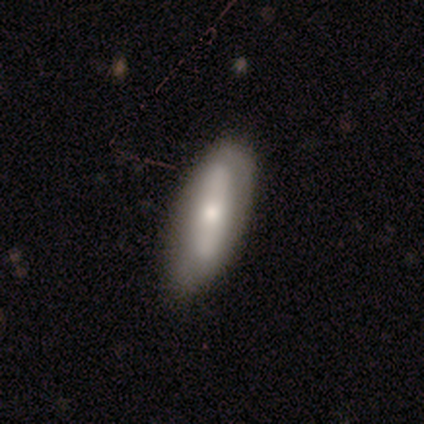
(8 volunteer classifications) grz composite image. It shows a smooth galaxy with no disk features (62%) that is in between round and cigar-shaped (80%). Merging: none (50%, tied with minor disturbance).